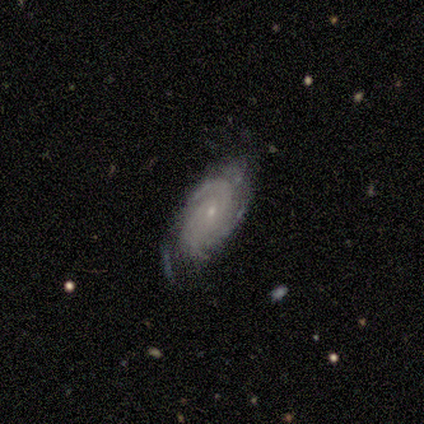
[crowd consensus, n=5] Q: Smooth or featured?
A: featured or disk (100%)
Q: Edge-on disk?
A: no (100%)
Q: Bar?
A: no (80%); runner-up: weak (20%)
Q: Spiral arms?
A: yes (100%)
Q: Spiral winding?
A: tight (100%)
Q: Spiral arm count?
A: can't tell (80%); runner-up: 3 (20%)
Q: Bulge size?
A: small (100%)
Q: Merging?
A: none (60%); runner-up: minor disturbance (40%)